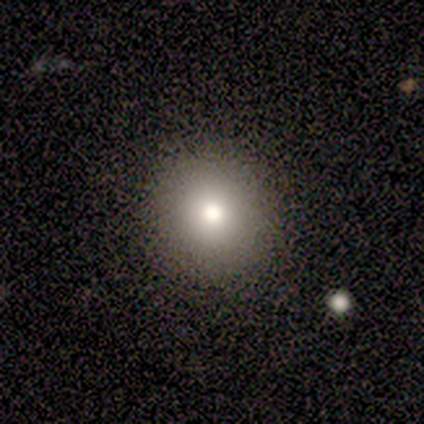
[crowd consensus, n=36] Smooth or featured: smooth — 75% (star or artifact — 19%)
How rounded: round — 96% (in between — 4%)
Merging: none — 90% (major disturbance — 7%)